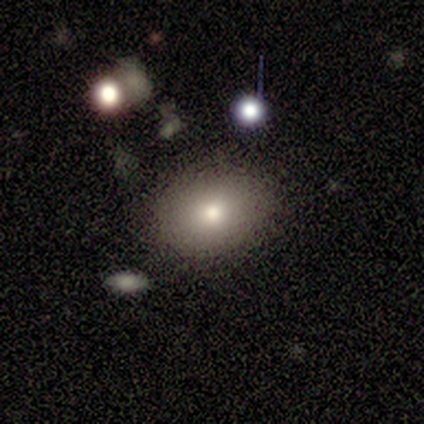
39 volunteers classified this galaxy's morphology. A smooth galaxy with no disk features (79%) that is in between round and cigar-shaped (55%). Merging: none (76%).